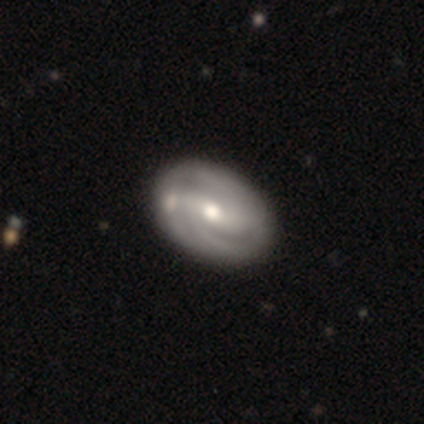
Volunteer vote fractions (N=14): This appears to be a featured or disk galaxy (86%) with no bar (55%), 2 (67%) tight (67%) spiral arms (82%) and a moderate central bulge (73%). Merging: none (79%).